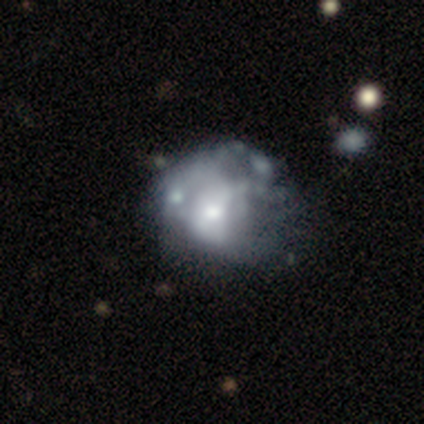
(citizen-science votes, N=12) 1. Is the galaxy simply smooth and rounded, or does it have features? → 83% featured or disk, 8% smooth, 8% star or artifact.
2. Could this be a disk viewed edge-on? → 100% no, 0% yes.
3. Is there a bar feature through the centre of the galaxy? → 70% no, 30% weak, 0% strong.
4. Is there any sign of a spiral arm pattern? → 90% no, 10% yes.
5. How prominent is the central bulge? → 50% moderate, 40% small, 10% large, 0% dominant, 0% none.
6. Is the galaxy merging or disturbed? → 55% none, 36% minor disturbance, 9% major disturbance, 0% merger.